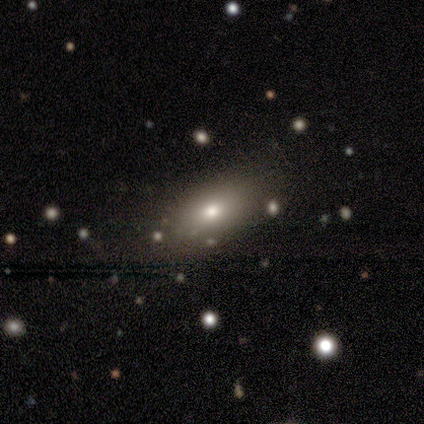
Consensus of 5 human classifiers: Smooth or featured? smooth (40%, tied with star or artifact)
How rounded? in between (100%)
Merging? none (100%)